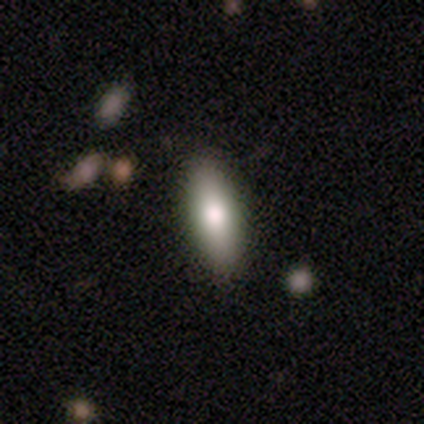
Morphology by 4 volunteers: Overall: smooth (75%). How rounded: in between (67%; cigar-shaped 33%). Merging: none (100%).